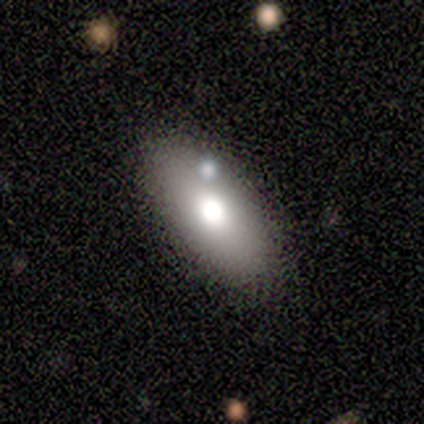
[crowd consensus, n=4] Morphology: type=smooth (100%); roundness=in between (75%); merging=none (100%).